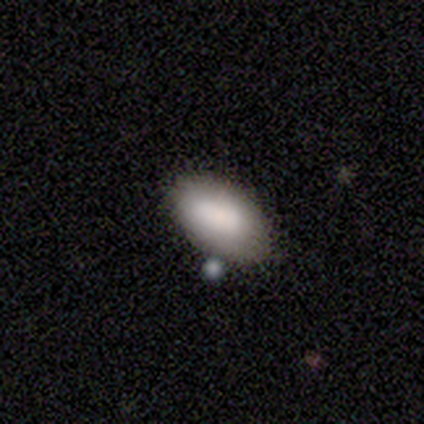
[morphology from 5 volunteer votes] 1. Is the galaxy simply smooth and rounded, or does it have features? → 80% smooth, 20% featured or disk, 0% star or artifact.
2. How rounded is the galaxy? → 75% in between, 25% round, 0% cigar-shaped.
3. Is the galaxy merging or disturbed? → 80% none, 20% minor disturbance, 0% major disturbance, 0% merger.